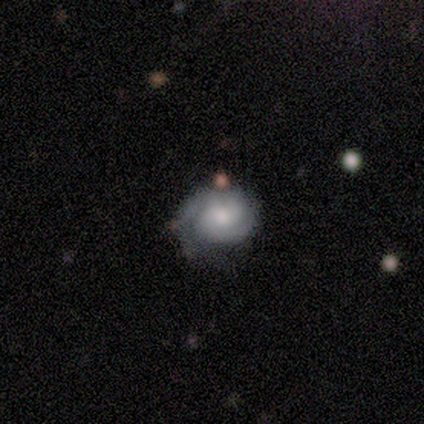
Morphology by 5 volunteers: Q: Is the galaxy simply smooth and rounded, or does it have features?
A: featured or disk — 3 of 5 (60%).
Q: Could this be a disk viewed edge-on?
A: no — 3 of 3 (100%).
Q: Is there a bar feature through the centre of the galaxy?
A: strong — 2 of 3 (67%).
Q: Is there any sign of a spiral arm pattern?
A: yes — 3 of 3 (100%).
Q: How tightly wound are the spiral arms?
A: tight — 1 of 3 (33%, tied with medium and loose).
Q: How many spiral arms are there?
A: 2 — 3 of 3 (100%).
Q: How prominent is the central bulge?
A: large — 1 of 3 (33%, tied with moderate and small).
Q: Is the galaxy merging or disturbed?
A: none — 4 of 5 (80%).